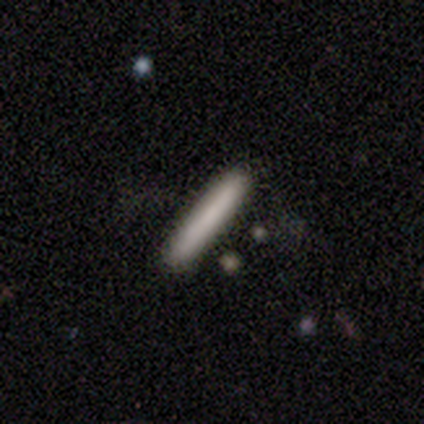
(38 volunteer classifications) This is clearly a smooth galaxy (82%). How rounded: clearly cigar-shaped (97%). Merging: clearly none (86%).